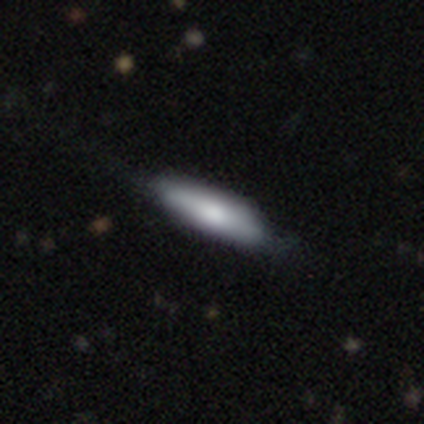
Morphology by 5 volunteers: type=smooth (40%, tied with star or artifact); roundness=cigar-shaped (100%); merging=none (33%, tied with minor disturbance and major disturbance).